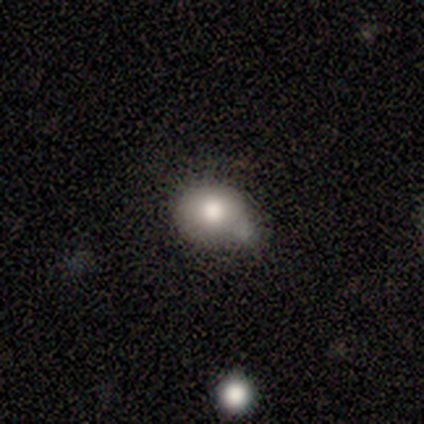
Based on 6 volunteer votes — smooth-or-featured: smooth: 83% | featured or disk: 17% | star or artifact: 0%
  how-rounded: in between: 60% | round: 40% | cigar-shaped: 0%
  merging: minor disturbance: 50% | merger: 33% | none: 17% | major disturbance: 0%